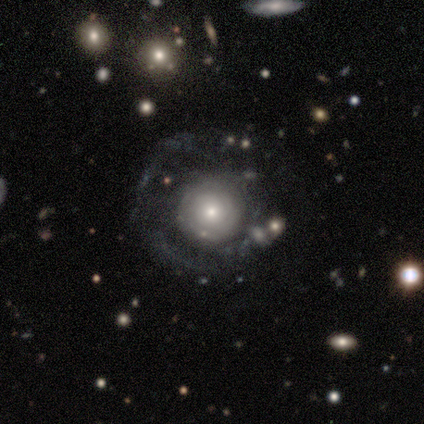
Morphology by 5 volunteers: Smooth or featured?
  - smooth: 40% * (tied)
  - featured or disk: 40% * (tied)
  - star or artifact: 20%
How rounded?
  - round: 100% *
  - in between: 0%
  - cigar-shaped: 0%
Merging?
  - none: 75% *
  - minor disturbance: 25%
  - major disturbance: 0%
  - merger: 0%